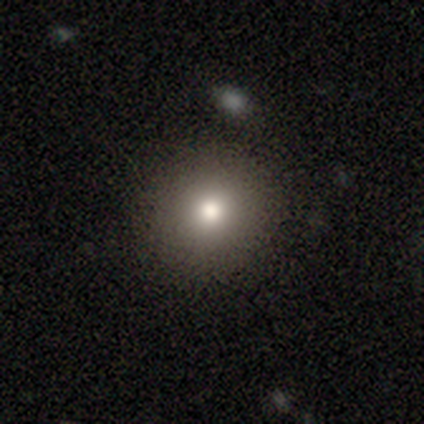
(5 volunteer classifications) smooth_or_featured: smooth (p=0.60) [alt: star or artifact p=0.40]
how_rounded: round (p=1.00)
merging: none (p=1.00)